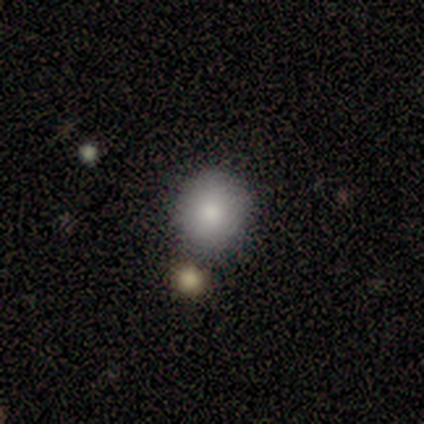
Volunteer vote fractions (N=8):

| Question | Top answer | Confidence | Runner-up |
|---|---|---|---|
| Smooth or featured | smooth | 62% | featured or disk (38%) |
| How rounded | round | 100% | — |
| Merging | none | 75% | merger (25%) |